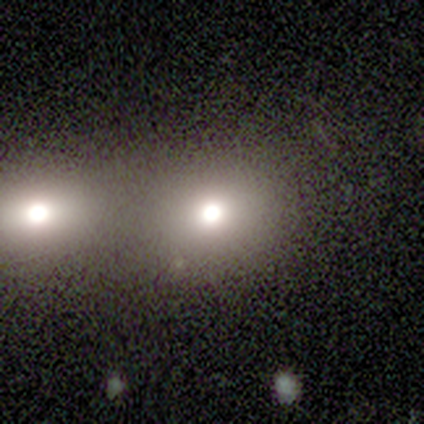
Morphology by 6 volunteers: Overall: smooth (100%). How rounded: round (83%). Merging: none (50%; merger 33%).